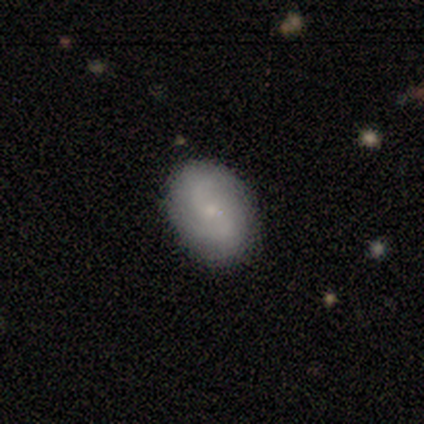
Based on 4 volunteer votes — Volunteers were most divided on "merging" (2-way tie): none: 50%, major disturbance: 50%, minor disturbance: 0%, merger: 0%. More confident: smooth or featured — smooth (75%); how rounded — in between (67%).